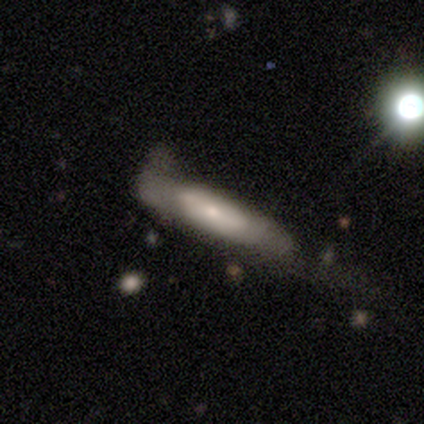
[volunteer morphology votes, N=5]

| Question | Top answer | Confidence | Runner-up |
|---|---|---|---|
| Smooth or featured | smooth | 60% | featured or disk (40%) |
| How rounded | cigar-shaped | 100% | — |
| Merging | none | 60% | minor disturbance (20%) |